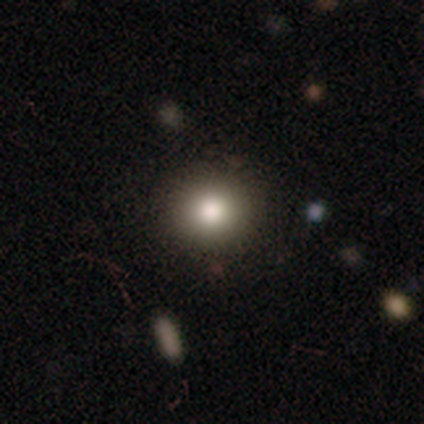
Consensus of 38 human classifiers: Smooth or featured? smooth (82%)
How rounded? round (87%)
Merging? none (94%)